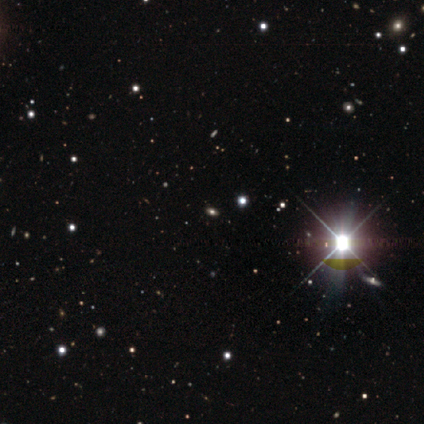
A star or artifact, not a galaxy (100%).

Vote fractions:
- Smooth or featured? star or artifact: 100% / smooth: 0% / featured or disk: 0%